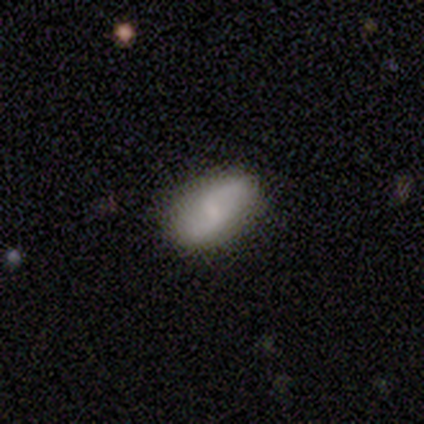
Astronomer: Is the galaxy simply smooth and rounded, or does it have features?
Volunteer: featured or disk — 60% (runner-up: smooth, 40%).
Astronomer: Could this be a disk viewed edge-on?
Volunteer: no — 100%.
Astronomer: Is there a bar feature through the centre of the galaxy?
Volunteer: weak — 100%.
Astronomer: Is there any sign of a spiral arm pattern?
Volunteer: yes — 100%.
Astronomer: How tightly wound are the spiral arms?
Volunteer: loose — 67%.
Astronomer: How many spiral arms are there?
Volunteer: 2 — 100%.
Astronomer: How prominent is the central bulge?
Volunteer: small — 67%.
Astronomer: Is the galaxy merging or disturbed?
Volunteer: none — 80%.